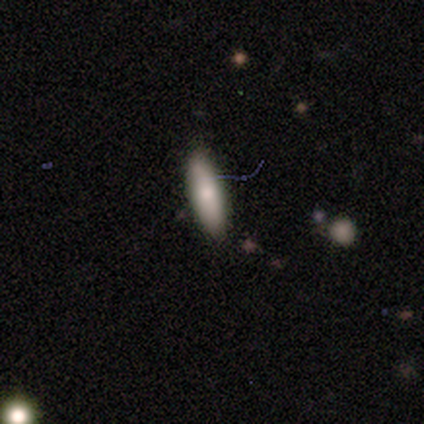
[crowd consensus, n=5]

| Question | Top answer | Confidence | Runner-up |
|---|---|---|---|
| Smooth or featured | smooth | 60% | featured or disk (20%) |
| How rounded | in between | 67% | cigar-shaped (33%) |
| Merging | none | 100% | — |